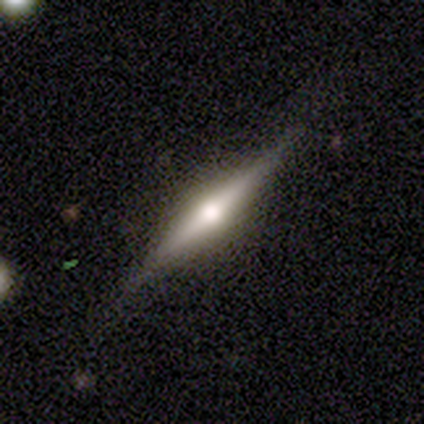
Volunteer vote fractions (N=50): Smooth or featured? featured or disk (84%)
Edge-on disk? yes (100%)
Edge-on bulge? rounded (93%)
Merging? none (89%)